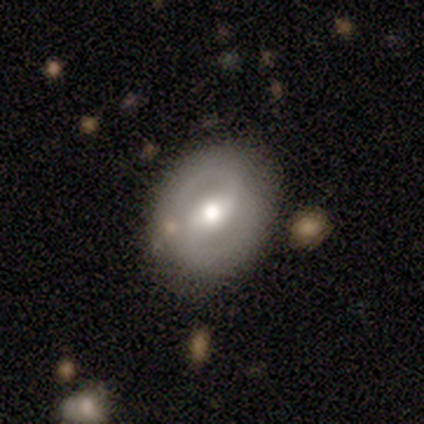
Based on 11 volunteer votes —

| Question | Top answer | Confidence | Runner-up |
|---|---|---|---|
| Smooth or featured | featured or disk | 64% | smooth (27%) |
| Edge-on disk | no | 100% | — |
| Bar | weak | 71% | strong (14%) |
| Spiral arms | yes | 100% | — |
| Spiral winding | tight | 43% | tied: medium (43%) |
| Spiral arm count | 2 | 100% | — |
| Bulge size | moderate | 71% | large (14%) |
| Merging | none | 80% | merger (20%) |